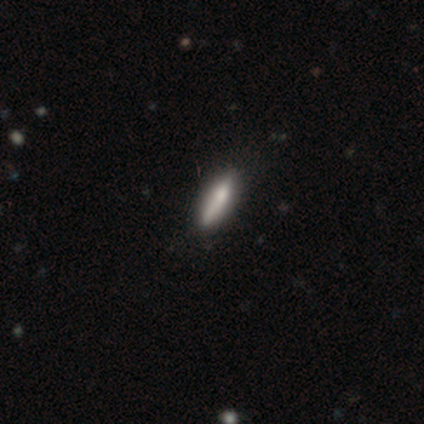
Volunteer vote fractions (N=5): This appears to be a smooth galaxy with no disk features (100%) that is cigar-shaped (100%). Merging: none (80%).